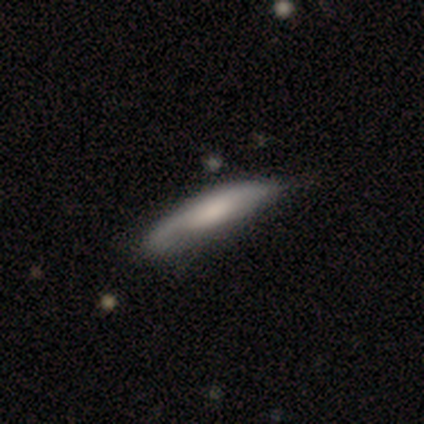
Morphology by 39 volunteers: A featured or disk galaxy (51%) viewed edge-on (60%) with no central bulge (50%). Merging: minor disturbance (39%).